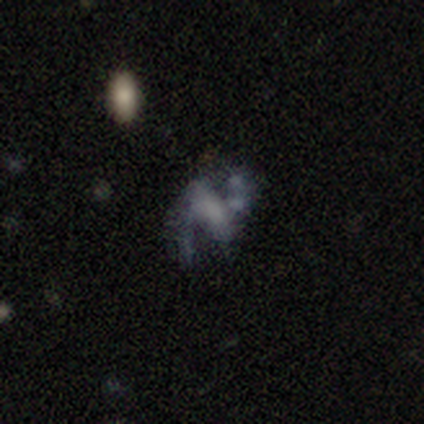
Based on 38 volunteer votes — Smooth or featured: featured or disk — 71% (star or artifact — 16%)
Edge-on disk: no — 100%
Bar: strong — 44% (no — 33%)
Spiral arms: yes — 78% (no — 22%)
Spiral winding: loose — 57% (medium — 38%)
Spiral arm count: 2 — 95% (can't tell — 5%)
Bulge size: none — 74% (moderate — 11%)
Merging: major disturbance — 41% (none — 31%)